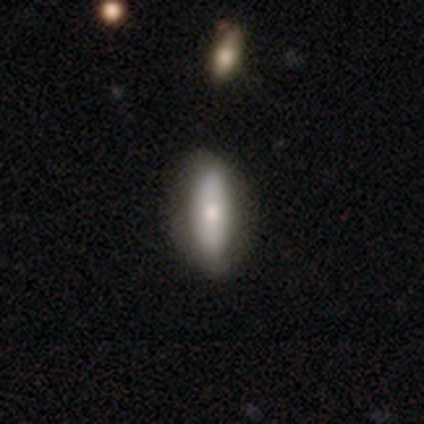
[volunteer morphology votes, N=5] A featured or disk galaxy (80%) with no bar (67%), no spiral arms (67%) and a large central bulge (33%, tied with moderate and small). Merging: none (80%).